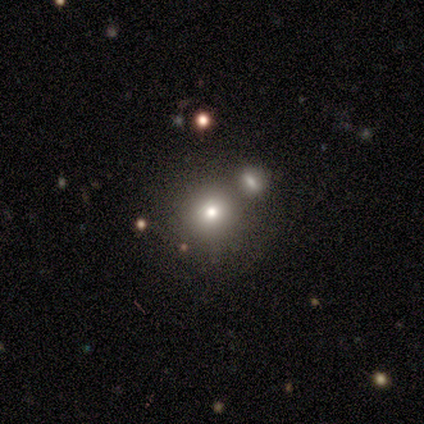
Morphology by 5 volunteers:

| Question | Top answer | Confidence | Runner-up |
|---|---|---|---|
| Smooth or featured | smooth | 60% | featured or disk (20%) |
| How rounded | round | 100% | — |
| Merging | none | 50% | minor disturbance (25%) |